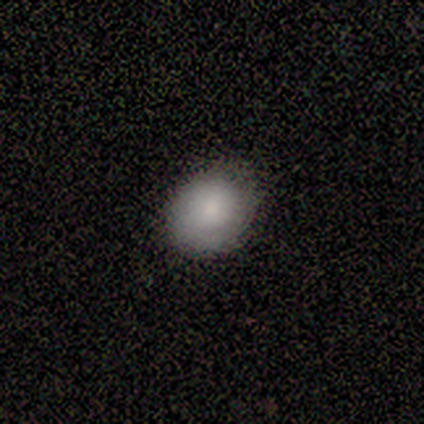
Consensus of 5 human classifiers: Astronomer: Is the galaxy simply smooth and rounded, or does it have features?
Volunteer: smooth — 100%.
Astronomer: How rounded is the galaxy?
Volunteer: round — 60% (runner-up: in between, 40%).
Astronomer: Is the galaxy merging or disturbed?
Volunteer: none — 100%.